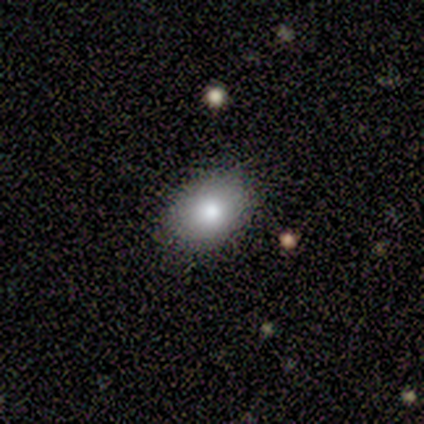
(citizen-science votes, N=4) smooth 75%, featured or disk 25%, star or artifact 0%. Down the decision tree: how rounded — in between (67%); merging — none (100%).